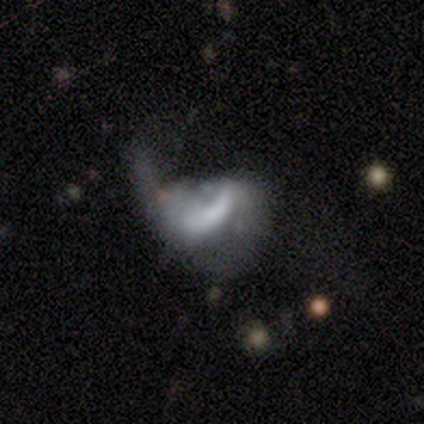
A star or artifact, not a galaxy (50%).